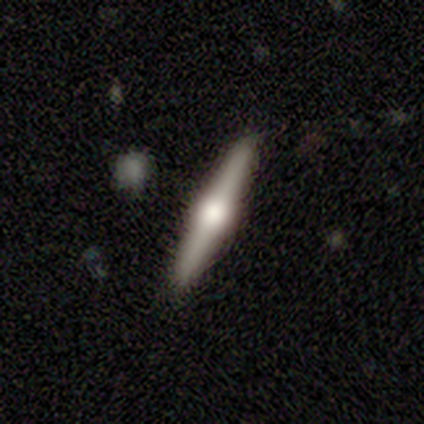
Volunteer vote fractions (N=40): This is clearly a featured or disk galaxy (88%). It is clearly viewed edge-on (100%). Edge-on bulge: clearly rounded (91%). Merging: clearly none (92%).